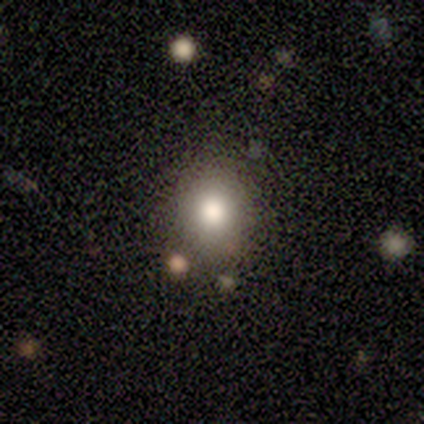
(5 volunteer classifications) smooth 60%, featured or disk 20%, star or artifact 20%. Down the decision tree: how rounded — in between (67%); merging — minor disturbance (50%).